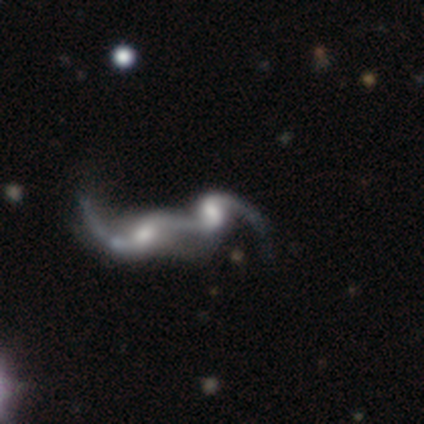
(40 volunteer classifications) Morphology: type=featured or disk (82%); edge-on=no (100%); bar=no (52%); spiral arms=yes (91%); winding=loose (93%); arm count=2 (73%); bulge=moderate (45%); merging=merger (65%).